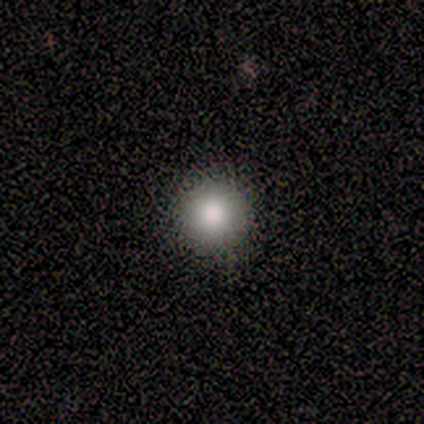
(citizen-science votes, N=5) Smooth or featured? 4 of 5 (80%) said smooth. How rounded? 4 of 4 (100%) said round. Merging? 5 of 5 (100%) said none.